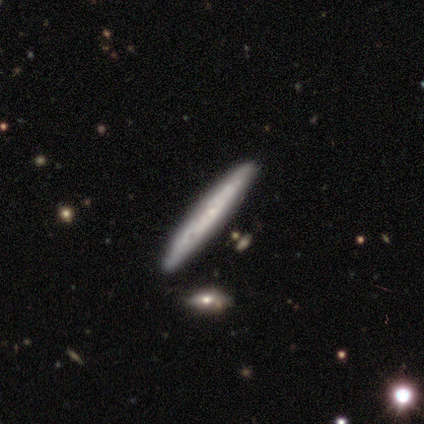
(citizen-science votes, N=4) A featured or disk galaxy (50%) viewed edge-on (50%, tied with no) with no central bulge (100%). Merging: none (100%).